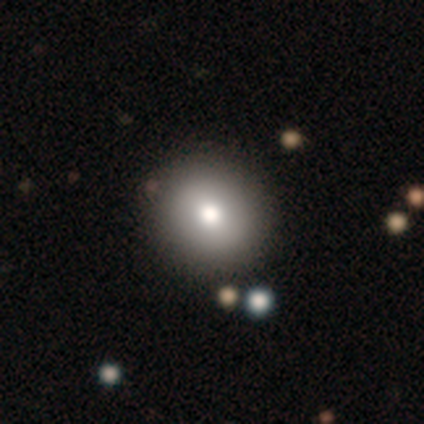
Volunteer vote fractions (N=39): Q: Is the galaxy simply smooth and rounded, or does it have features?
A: smooth — 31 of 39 (79%).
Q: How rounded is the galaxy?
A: round — 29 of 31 (94%).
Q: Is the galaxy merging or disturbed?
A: none — 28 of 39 (72%).